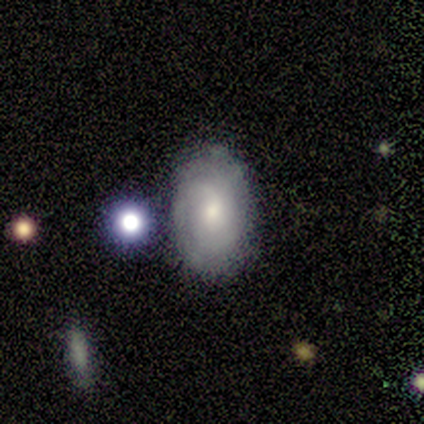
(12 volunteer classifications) Volunteers were most divided on "how rounded": in between: 78%, round: 22%, cigar-shaped: 0%. More confident: smooth or featured — smooth (75%); merging — none (73%).